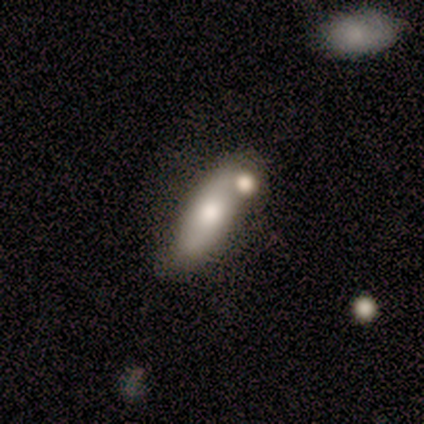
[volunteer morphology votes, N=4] Volunteers were most divided on "bar" (2-way tie): weak: 50%, no: 50%, strong: 0%; "bulge size" (2-way tie): large: 50%, moderate: 50%, dominant: 0%, small: 0%, none: 0%. More confident: edge-on disk — no (100%); spiral arms — no (100%); merging — merger (100%); smooth or featured — featured or disk (50%).